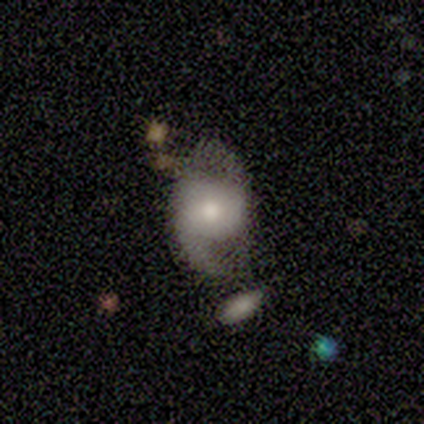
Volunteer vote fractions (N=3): Smooth or featured? featured or disk (100%)
Edge-on disk? no (100%)
Bar? no (67%)
Spiral arms? yes (100%)
Spiral winding? loose (67%)
Spiral arm count? 2 (100%)
Bulge size? moderate (33%, tied with small and none)
Merging? none (67%)